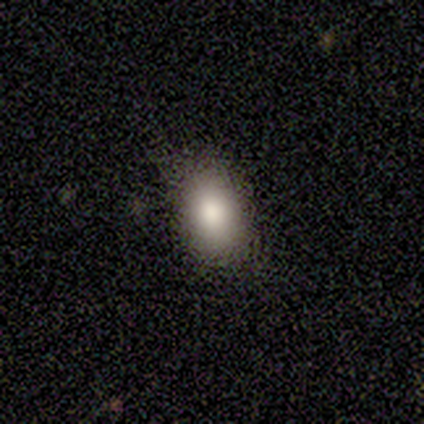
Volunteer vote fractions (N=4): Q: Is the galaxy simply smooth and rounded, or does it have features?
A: smooth — 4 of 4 (100%).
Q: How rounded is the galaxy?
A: in between — 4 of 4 (100%).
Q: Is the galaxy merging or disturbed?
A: none — 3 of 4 (75%).